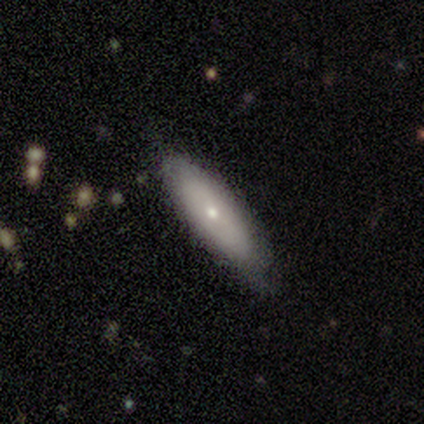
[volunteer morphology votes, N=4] Smooth or featured? smooth (75%)
How rounded? in between (100%)
Merging? none (75%)